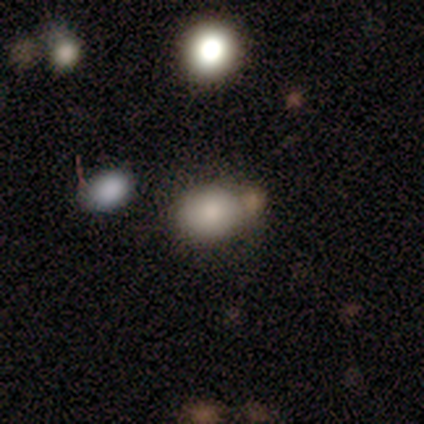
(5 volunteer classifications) A smooth galaxy with no disk features (100%) that is in between round and cigar-shaped (80%).

Vote fractions:
- Smooth or featured? smooth: 100% / featured or disk: 0% / star or artifact: 0%
- How rounded? in between: 80% / round: 20% / cigar-shaped: 0%
- Merging? none: 60% / merger: 40% / minor disturbance: 0% / major disturbance: 0%